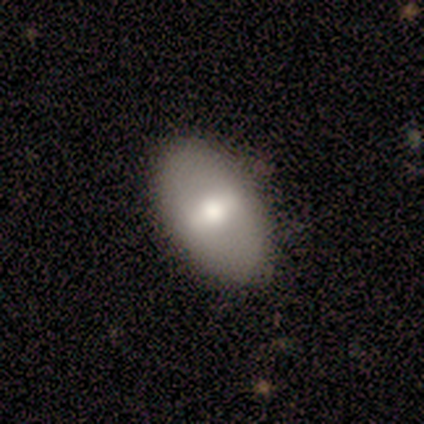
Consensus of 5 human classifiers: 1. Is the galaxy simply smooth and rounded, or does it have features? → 60% featured or disk, 20% smooth, 20% star or artifact.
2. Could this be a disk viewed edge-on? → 100% no, 0% yes.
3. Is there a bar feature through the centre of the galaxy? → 67% weak, 33% no, 0% strong.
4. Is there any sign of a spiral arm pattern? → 100% no, 0% yes.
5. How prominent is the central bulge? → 67% large, 33% moderate, 0% dominant, 0% small, 0% none.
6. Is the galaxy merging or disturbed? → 75% none, 25% minor disturbance, 0% major disturbance, 0% merger.